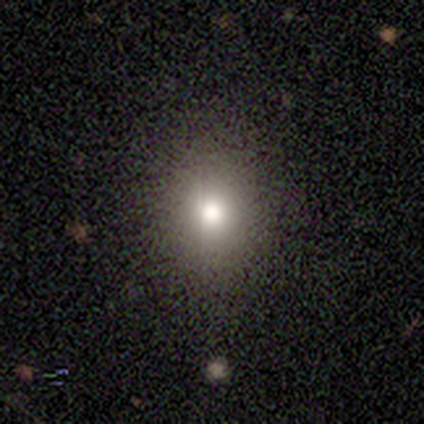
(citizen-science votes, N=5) smooth 80%, featured or disk 20%, star or artifact 0%. Down the decision tree: how rounded — round (75%); merging — none (100%).